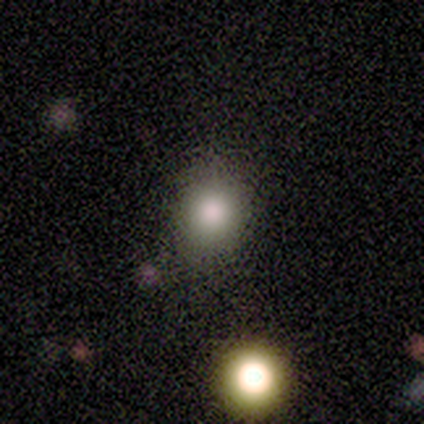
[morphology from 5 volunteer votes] Smooth or featured?
  - smooth: 80% *
  - star or artifact: 20%
  - featured or disk: 0%
How rounded?
  - round: 75% *
  - in between: 25%
  - cigar-shaped: 0%
Merging?
  - none: 50% *
  - minor disturbance: 25%
  - merger: 25%
  - major disturbance: 0%